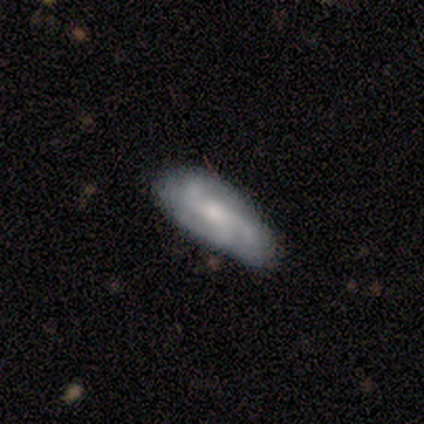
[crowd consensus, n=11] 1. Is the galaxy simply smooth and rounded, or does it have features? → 55% featured or disk, 27% smooth, 18% star or artifact.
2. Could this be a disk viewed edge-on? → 100% no, 0% yes.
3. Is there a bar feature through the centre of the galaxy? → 33% strong (tied), 33% weak (tied), 33% no (tied).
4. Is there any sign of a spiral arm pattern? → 100% yes, 0% no.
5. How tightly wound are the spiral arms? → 50% medium (tied), 50% loose (tied), 0% tight.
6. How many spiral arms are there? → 83% 3, 17% 2, 0% 1, 0% 4, 0% more than 4, 0% can't tell.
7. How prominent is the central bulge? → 50% moderate, 33% small, 17% large, 0% dominant, 0% none.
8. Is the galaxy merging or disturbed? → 100% none, 0% minor disturbance, 0% major disturbance, 0% merger.